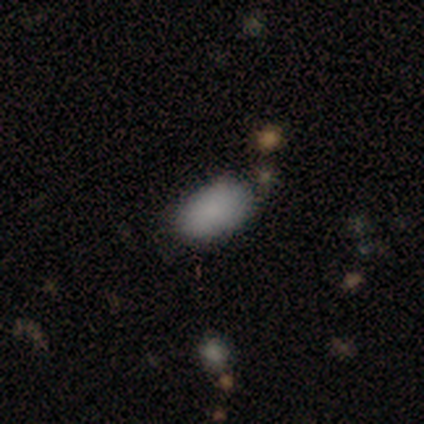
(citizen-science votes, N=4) Smooth or featured? 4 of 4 (100%) said smooth. How rounded? 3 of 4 (75%) said in between. Merging? 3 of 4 (75%) said none.